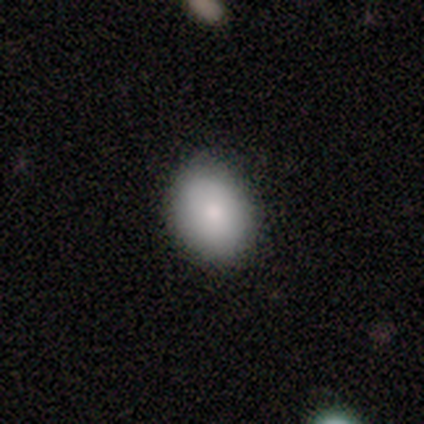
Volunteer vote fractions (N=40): Smooth or featured? 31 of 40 (78%) said smooth. How rounded? 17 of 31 (55%) said round. Merging? 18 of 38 (47%) said none.